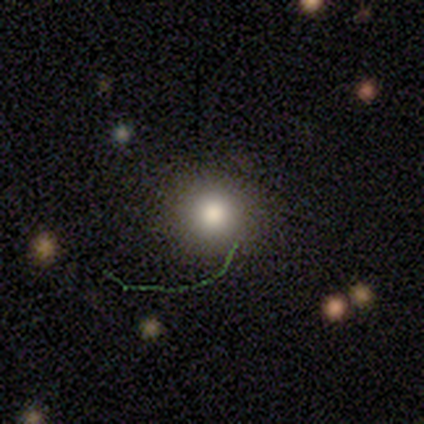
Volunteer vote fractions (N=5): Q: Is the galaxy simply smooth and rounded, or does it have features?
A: smooth — 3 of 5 (60%).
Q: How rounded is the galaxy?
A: round — 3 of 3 (100%).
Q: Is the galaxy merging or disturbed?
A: none — 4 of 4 (100%).